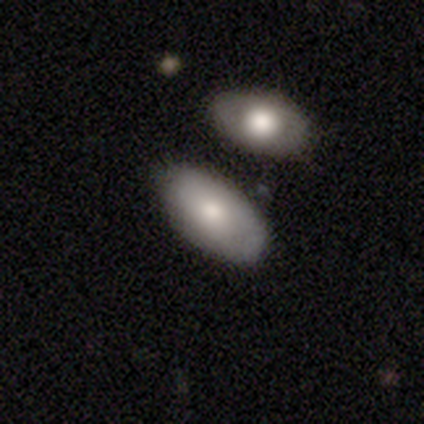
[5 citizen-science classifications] smooth 60%, featured or disk 40%, star or artifact 0%. Down the decision tree: how rounded — in between (100%); merging — none (80%).